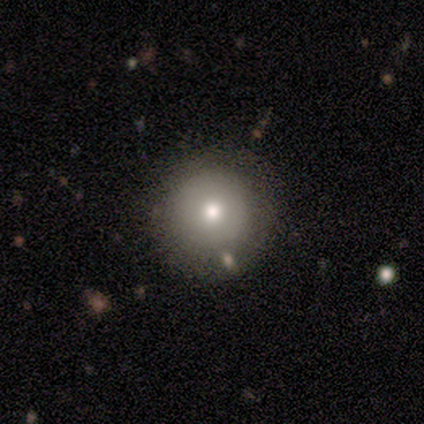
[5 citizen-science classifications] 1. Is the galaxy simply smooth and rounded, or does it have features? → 60% featured or disk, 40% smooth, 0% star or artifact.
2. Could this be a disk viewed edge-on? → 100% no, 0% yes.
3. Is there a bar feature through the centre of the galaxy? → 100% no, 0% strong, 0% weak.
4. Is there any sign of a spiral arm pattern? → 100% no, 0% yes.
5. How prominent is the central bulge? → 100% moderate, 0% dominant, 0% large, 0% small, 0% none.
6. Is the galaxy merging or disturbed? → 80% none, 20% merger, 0% minor disturbance, 0% major disturbance.